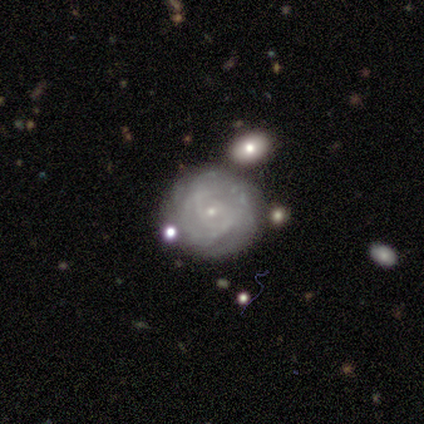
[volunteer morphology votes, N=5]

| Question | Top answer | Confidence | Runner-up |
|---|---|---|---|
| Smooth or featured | smooth | 60% | featured or disk (40%) |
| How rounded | round | 100% | — |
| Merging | none | 80% | major disturbance (20%) |